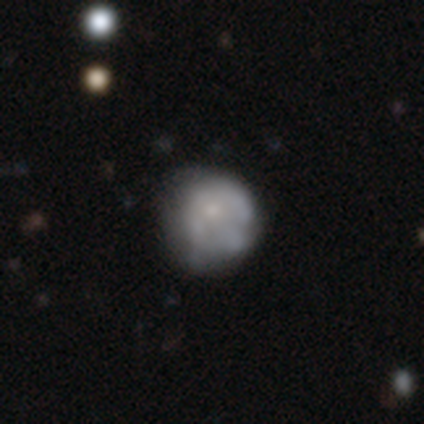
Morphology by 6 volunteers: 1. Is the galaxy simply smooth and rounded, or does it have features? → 50% featured or disk, 33% smooth, 17% star or artifact.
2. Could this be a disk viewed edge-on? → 100% no, 0% yes.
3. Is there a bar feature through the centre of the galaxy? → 100% no, 0% strong, 0% weak.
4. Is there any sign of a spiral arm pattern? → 100% no, 0% yes.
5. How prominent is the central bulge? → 100% small, 0% dominant, 0% large, 0% moderate, 0% none.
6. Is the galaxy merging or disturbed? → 80% none, 20% minor disturbance, 0% major disturbance, 0% merger.